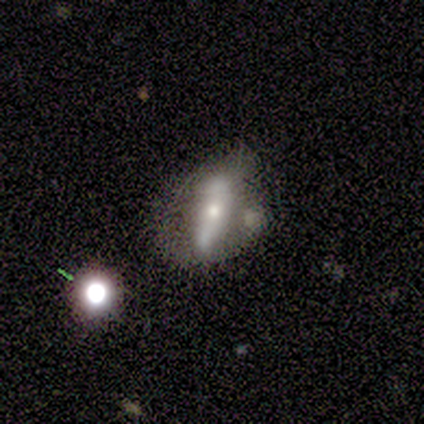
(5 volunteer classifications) Volunteers were most divided on "edge-on bulge" (2-way tie): none: 50%, rounded: 50%, boxy: 0%. More confident: merging — minor disturbance (75%); edge-on disk — yes (67%); smooth or featured — featured or disk (60%).